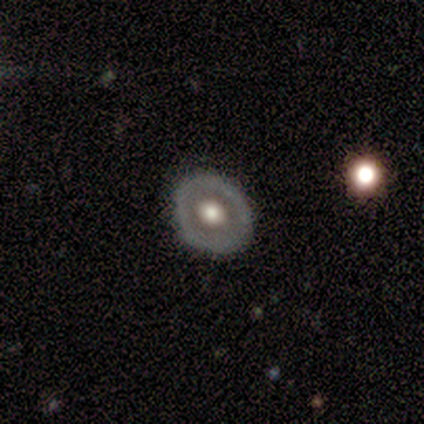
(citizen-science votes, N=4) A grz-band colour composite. It shows a featured or disk galaxy (75%) with no bar (100%), no spiral arms (100%) and a large central bulge (50%, tied with moderate). Merging: none (50%, tied with minor disturbance).